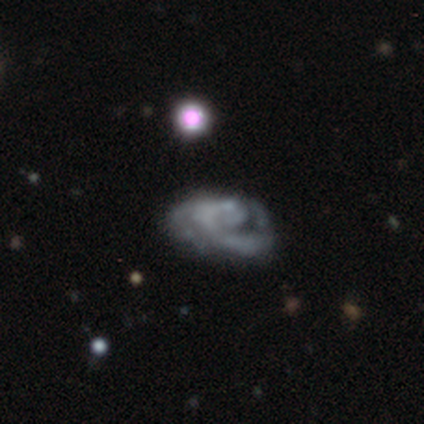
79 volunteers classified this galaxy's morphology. Smooth or featured? featured or disk (78%)
Edge-on disk? no (100%)
Bar? no (94%)
Spiral arms? yes (74%)
Spiral winding? tight (43%)
Spiral arm count? can't tell (39%)
Bulge size? none (87%)
Merging? none (25%)